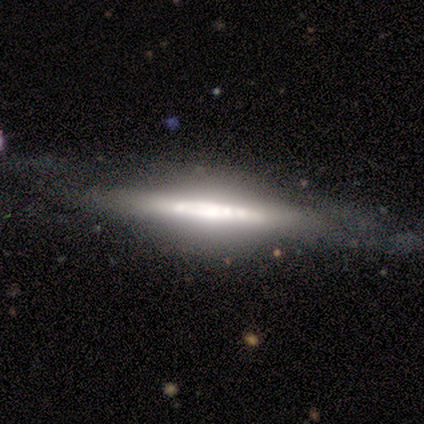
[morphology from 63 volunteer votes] Volunteers were most divided on "edge-on bulge": rounded: 41%, boxy: 29%, none: 29%. More confident: edge-on disk — yes (82%); smooth or featured — featured or disk (79%); merging — none (67%).